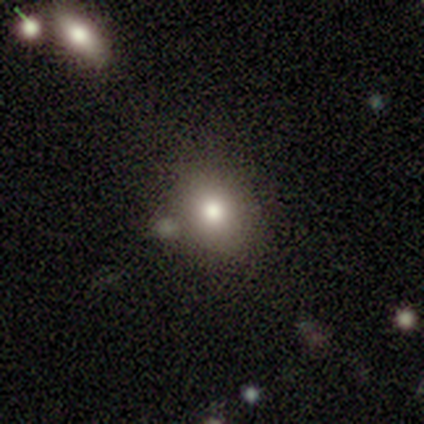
Smooth or featured? 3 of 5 (60%) said smooth. How rounded? 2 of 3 (67%) said round. Merging? 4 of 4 (100%) said none.